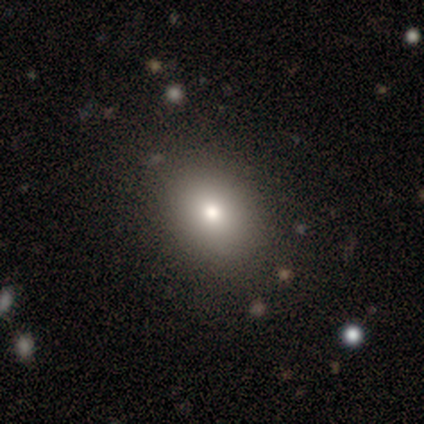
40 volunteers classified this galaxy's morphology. smooth 80%, featured or disk 18%, star or artifact 2%. Down the decision tree: how rounded — in between (50%); merging — none (85%).